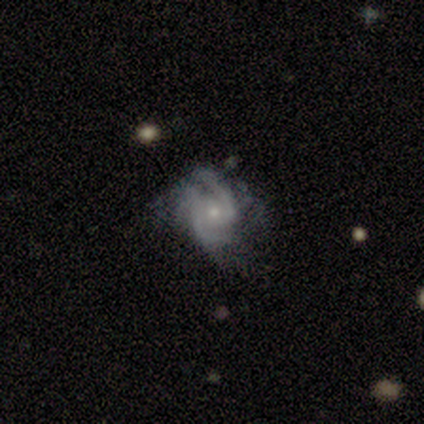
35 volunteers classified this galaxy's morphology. Smooth or featured?
  - featured or disk: 89% *
  - smooth: 6%
  - star or artifact: 6%
Edge-on disk?
  - no: 100% *
  - yes: 0%
Bar?
  - no: 61% *
  - weak: 35%
  - strong: 3%
Spiral arms?
  - yes: 97% *
  - no: 3%
Spiral winding?
  - medium: 60% *
  - loose: 23%
  - tight: 17%
Spiral arm count?
  - 2: 77% *
  - 3: 13%
  - can't tell: 10%
  - 1: 0%
  - 4: 0%
  - more than 4: 0%
Bulge size?
  - small: 74% *
  - moderate: 26%
  - dominant: 0%
  - large: 0%
  - none: 0%
Merging?
  - none: 45% *
  - minor disturbance: 27%
  - major disturbance: 24%
  - merger: 3%